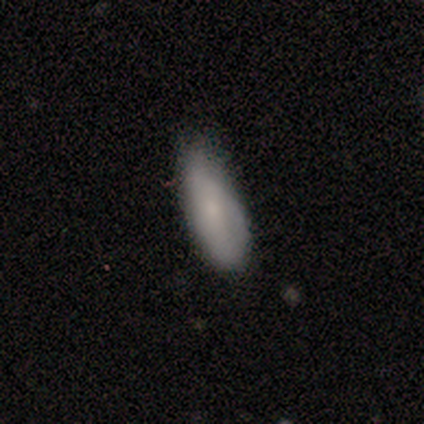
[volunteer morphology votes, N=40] A smooth galaxy with no disk features (62%) that is in between round and cigar-shaped (72%).

Vote fractions:
- Smooth or featured? smooth: 62% / featured or disk: 28% / star or artifact: 10%
- How rounded? in between: 72% / cigar-shaped: 24% / round: 4%
- Merging? minor disturbance: 61% / none: 31% / major disturbance: 8% / merger: 0%